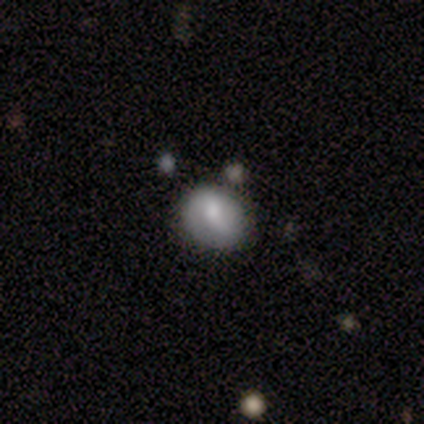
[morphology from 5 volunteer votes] Smooth or featured: smooth — 60% (featured or disk — 40%)
How rounded: round — 67% (in between — 33%)
Merging: none — 40% (tied with minor disturbance — 40%)